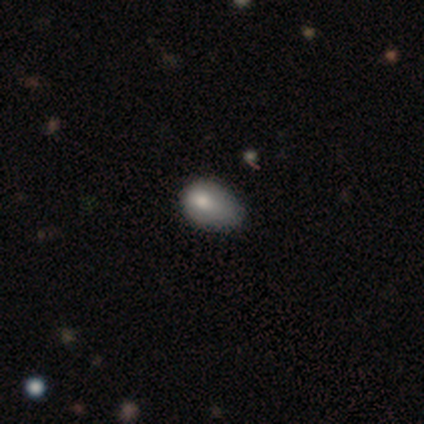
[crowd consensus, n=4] Smooth or featured? smooth (75%)
How rounded? in between (100%)
Merging? none (33%, tied with minor disturbance and major disturbance)